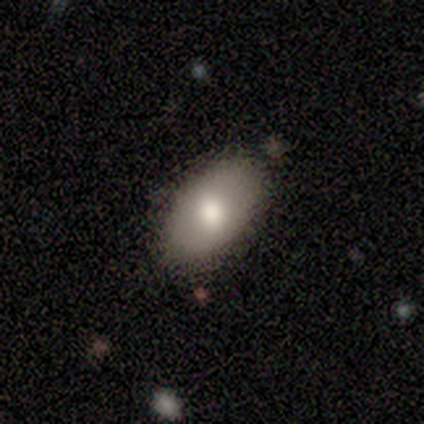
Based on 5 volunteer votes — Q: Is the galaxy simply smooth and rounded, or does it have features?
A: smooth — 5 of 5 (100%).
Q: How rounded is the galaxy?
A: in between — 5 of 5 (100%).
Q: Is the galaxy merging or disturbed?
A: none — 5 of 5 (100%).